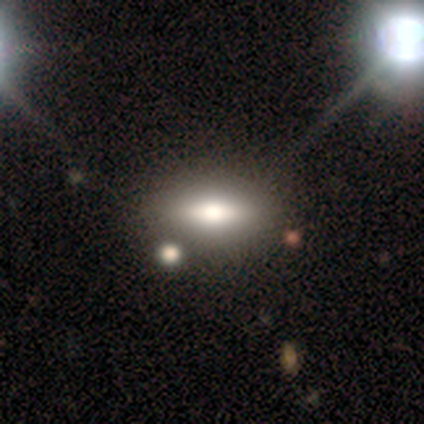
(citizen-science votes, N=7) This appears to be a smooth galaxy with no disk features (57%) that is in between round and cigar-shaped (100%). Merging: none (71%).